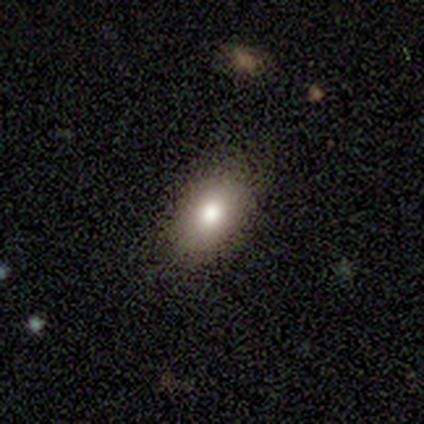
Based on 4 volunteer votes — smooth-or-featured: smooth: 75% | featured or disk: 25% | star or artifact: 0%
  how-rounded: in between: 67% | cigar-shaped: 33% | round: 0%
  merging: none: 100% | minor disturbance: 0% | major disturbance: 0% | merger: 0%